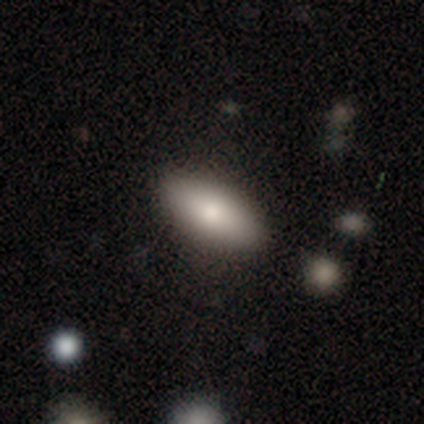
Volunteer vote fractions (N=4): This is clearly a smooth galaxy (100%). How rounded: likely in between (75%). Merging: clearly none (100%).